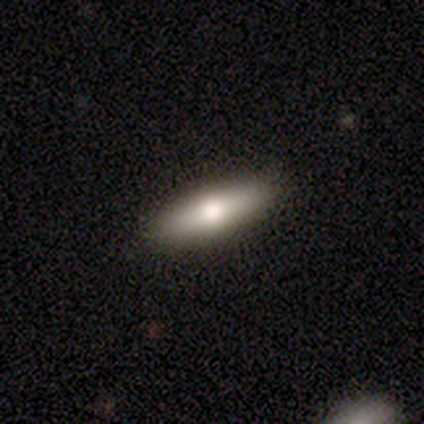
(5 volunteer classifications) Smooth or featured?
  - smooth: 60% *
  - featured or disk: 40%
  - star or artifact: 0%
How rounded?
  - in between: 67% *
  - cigar-shaped: 33%
  - round: 0%
Merging?
  - none: 60% *
  - minor disturbance: 20%
  - major disturbance: 20%
  - merger: 0%